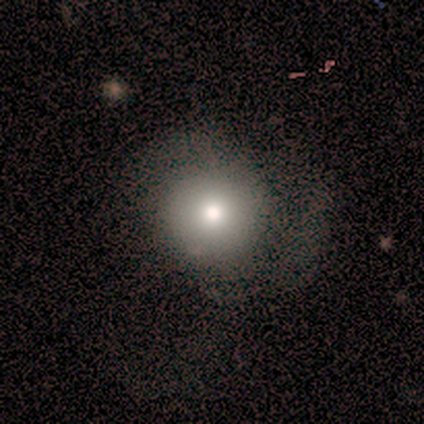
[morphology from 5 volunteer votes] A smooth galaxy with no disk features (80%) that is round (100%).

Vote fractions:
- Smooth or featured? smooth: 80% / star or artifact: 20% / featured or disk: 0%
- How rounded? round: 100% / in between: 0% / cigar-shaped: 0%
- Merging? none: 50% / minor disturbance: 25% / major disturbance: 25% / merger: 0%